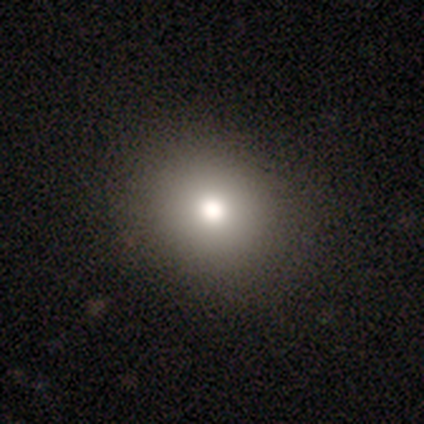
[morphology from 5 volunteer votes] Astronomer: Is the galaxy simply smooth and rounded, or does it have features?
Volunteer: smooth — 80%.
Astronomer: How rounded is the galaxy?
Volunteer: round — 100%.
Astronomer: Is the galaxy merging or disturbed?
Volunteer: none — 50%.